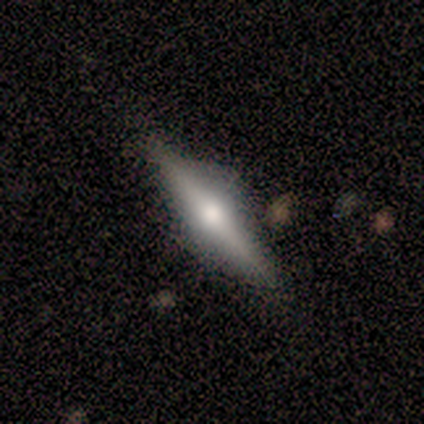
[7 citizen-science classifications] smooth-or-featured: featured or disk: 86% | star or artifact: 14% | smooth: 0%
  disk-edge-on: yes: 100% | no: 0%
    edge-on-bulge: rounded: 100% | boxy: 0% | none: 0%
  merging: none: 100% | minor disturbance: 0% | major disturbance: 0% | merger: 0%